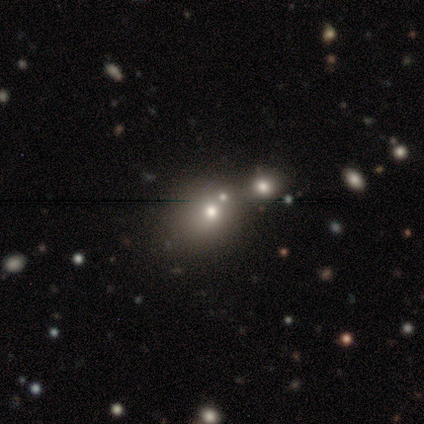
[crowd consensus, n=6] Smooth or featured?
  - smooth: 67% *
  - featured or disk: 17%
  - star or artifact: 17%
How rounded?
  - round: 100% *
  - in between: 0%
  - cigar-shaped: 0%
Merging?
  - none: 100% *
  - minor disturbance: 0%
  - major disturbance: 0%
  - merger: 0%